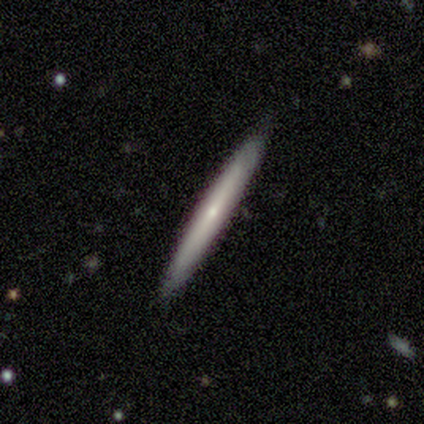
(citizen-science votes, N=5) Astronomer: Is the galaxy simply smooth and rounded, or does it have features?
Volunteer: featured or disk — 60% (runner-up: smooth, 40%).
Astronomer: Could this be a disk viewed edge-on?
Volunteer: yes — 100%.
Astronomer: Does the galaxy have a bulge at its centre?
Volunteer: none — 67%.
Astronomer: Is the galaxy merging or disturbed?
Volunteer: none — 100%.